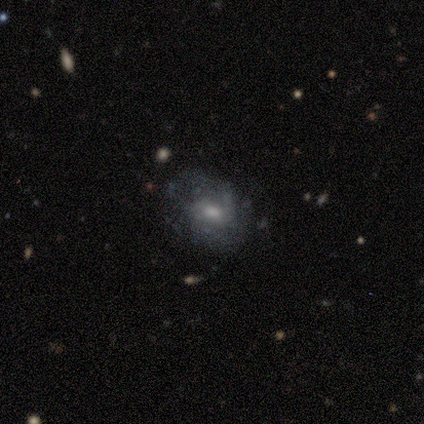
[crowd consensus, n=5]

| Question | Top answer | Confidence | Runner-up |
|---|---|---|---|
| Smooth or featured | featured or disk | 60% | smooth (40%) |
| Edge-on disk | no | 100% | — |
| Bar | strong | 33% | tied: weak (33%), no (33%) |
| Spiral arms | yes | 67% | no (33%) |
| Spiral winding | tight | 50% | tied: medium (50%) |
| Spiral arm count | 2 | 50% | tied: can't tell (50%) |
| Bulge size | small | 67% | moderate (33%) |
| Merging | none | 80% | minor disturbance (20%) |